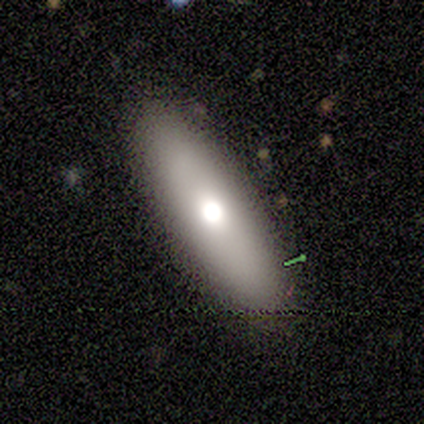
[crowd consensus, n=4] Overall: smooth (50%, tied with featured or disk). How rounded: cigar-shaped (100%). Merging: none (100%).